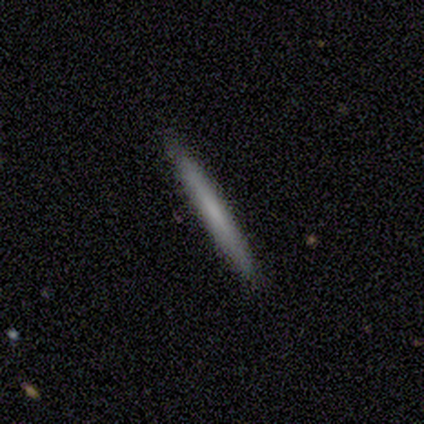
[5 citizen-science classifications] smooth-or-featured: smooth: 80% | featured or disk: 20% | star or artifact: 0%
  how-rounded: cigar-shaped: 100% | round: 0% | in between: 0%
  merging: none: 100% | minor disturbance: 0% | major disturbance: 0% | merger: 0%